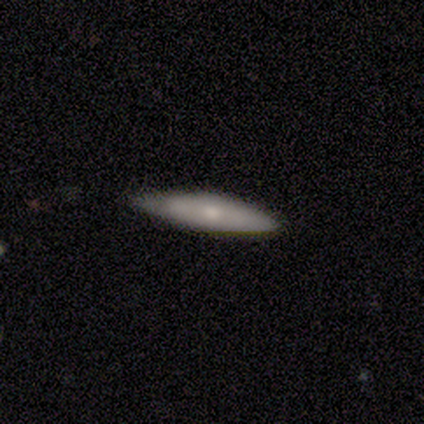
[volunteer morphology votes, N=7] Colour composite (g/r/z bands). It shows a smooth galaxy with no disk features (57%) that is in between round and cigar-shaped (50%, tied with cigar-shaped). Merging: none (57%).